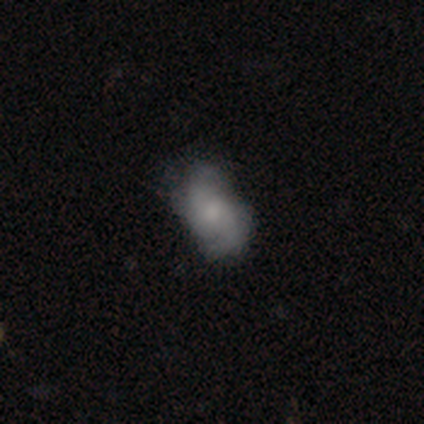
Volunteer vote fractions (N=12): Smooth or featured? featured or disk (50%)
Edge-on disk? no (100%)
Bar? no (83%)
Spiral arms? yes (100%)
Spiral winding? loose (50%)
Spiral arm count? 2 (100%)
Bulge size? moderate (50%)
Merging? minor disturbance (45%)